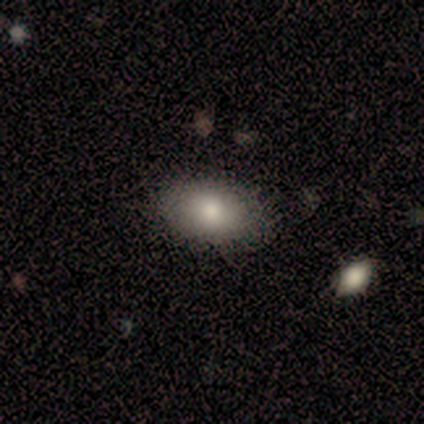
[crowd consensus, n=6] A smooth galaxy with no disk features (100%) that is in between round and cigar-shaped (67%). Merging: none (83%).